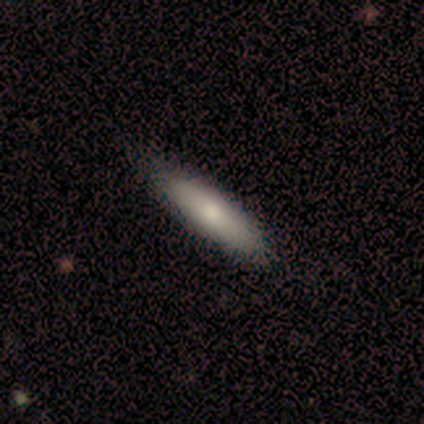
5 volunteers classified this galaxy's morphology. Volunteers were most divided on "how rounded": cigar-shaped: 60%, in between: 40%, round: 0%. More confident: smooth or featured — smooth (100%); merging — none (100%).